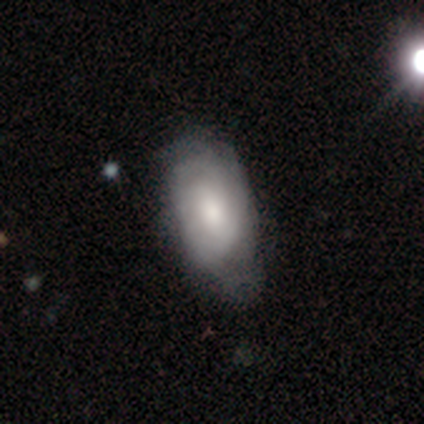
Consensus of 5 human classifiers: This appears to be a featured or disk galaxy (80%) with no bar (75%), tight (50%, tied with loose) spiral arms (100%) and a moderate central bulge (75%). Merging: none (80%).